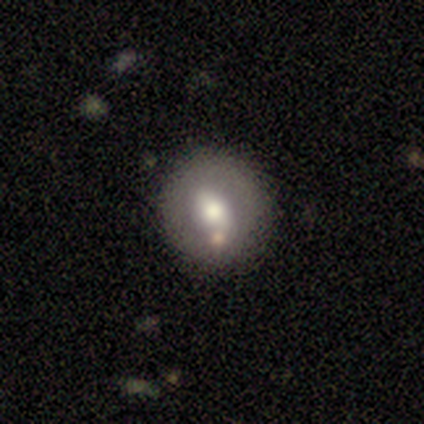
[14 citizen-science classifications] Smooth or featured? smooth (43%, tied with featured or disk)
How rounded? round (67%)
Merging? none (75%)